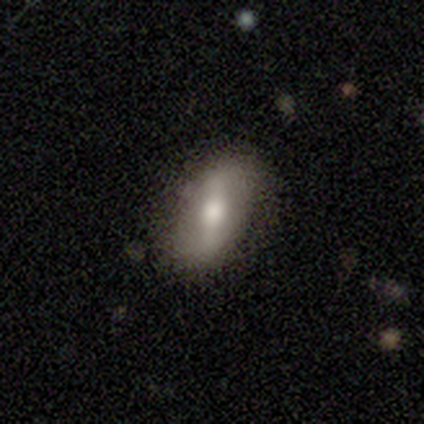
Smooth or featured? smooth (48%)
How rounded? in between (95%)
Merging? none (89%)